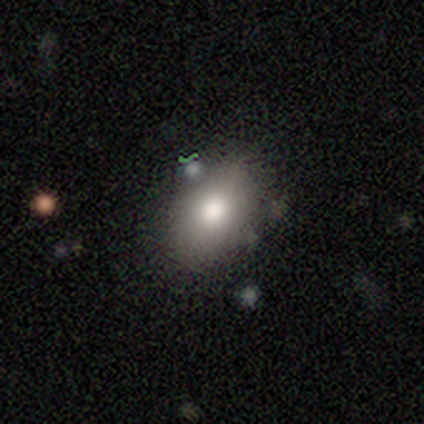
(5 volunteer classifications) A smooth galaxy with no disk features (80%) that is round (50%, tied with in between).

Vote fractions:
- Smooth or featured? smooth: 80% / featured or disk: 20% / star or artifact: 0%
- How rounded? round: 50% (tied) / in between: 50% (tied) / cigar-shaped: 0%
- Merging? none: 60% / minor disturbance: 20% / merger: 20% / major disturbance: 0%